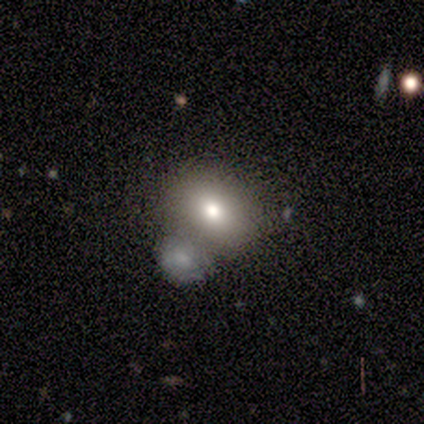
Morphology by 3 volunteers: smooth_or_featured: smooth (p=1.00)
how_rounded: round (p=0.67) [alt: in between p=0.33]
merging: merger (p=0.67) [alt: none p=0.33]